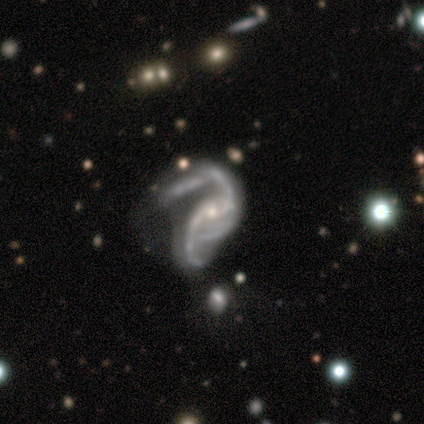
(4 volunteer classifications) featured or disk 100%, smooth 0%, star or artifact 0%. Down the decision tree: edge-on disk — no (100%); bar — weak (75%); spiral arms — yes (75%); spiral arm count — 2 (100%); spiral winding — medium (67%); bulge size — small (75%); merging — none (50%).